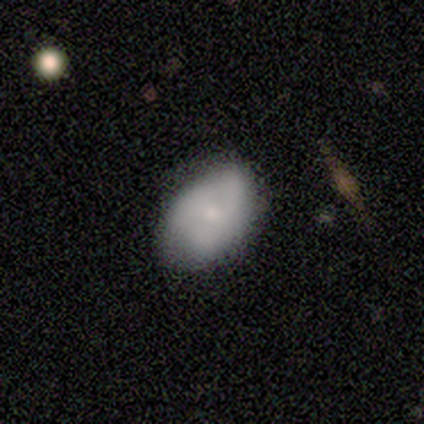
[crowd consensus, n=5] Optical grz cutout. It shows a smooth galaxy with no disk features (40%, tied with featured or disk) that is round (50%, tied with in between). Merging: none (100%).